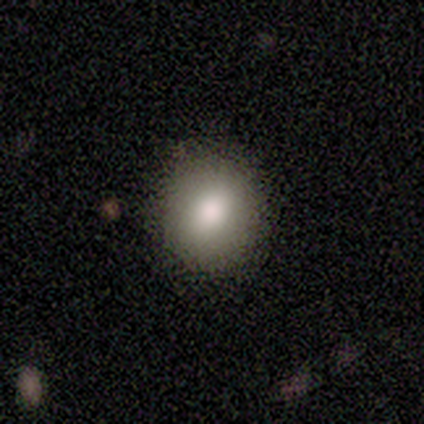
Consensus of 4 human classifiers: Q: Smooth or featured?
A: smooth (100%)
Q: How rounded?
A: round (50%); tied with: in between (50%)
Q: Merging?
A: none (50%); tied with: minor disturbance (50%)